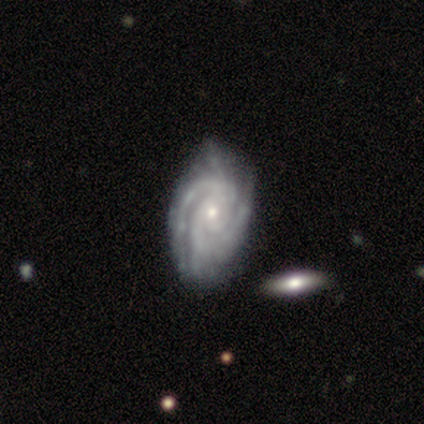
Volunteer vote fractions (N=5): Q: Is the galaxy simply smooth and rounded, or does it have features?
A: featured or disk — 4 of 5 (80%).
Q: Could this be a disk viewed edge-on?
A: no — 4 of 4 (100%).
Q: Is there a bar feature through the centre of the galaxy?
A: no — 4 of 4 (100%).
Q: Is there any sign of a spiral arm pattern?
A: yes — 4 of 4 (100%).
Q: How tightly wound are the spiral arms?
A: tight — 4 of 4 (100%).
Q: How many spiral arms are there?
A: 3 — 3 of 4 (75%).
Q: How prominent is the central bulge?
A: small — 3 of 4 (75%).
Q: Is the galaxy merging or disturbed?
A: none — 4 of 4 (100%).